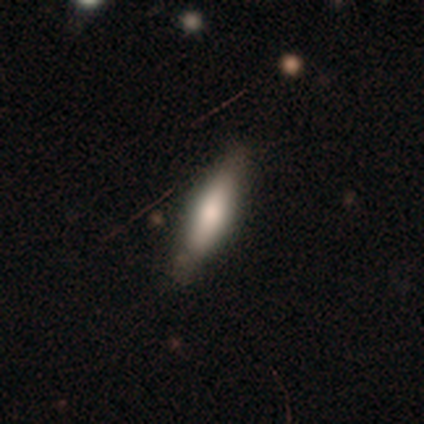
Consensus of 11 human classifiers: smooth_or_featured: smooth (p=0.91) [alt: featured or disk p=0.09]
how_rounded: cigar-shaped (p=0.70) [alt: in between p=0.30]
merging: none (p=0.82) [alt: minor disturbance p=0.18]